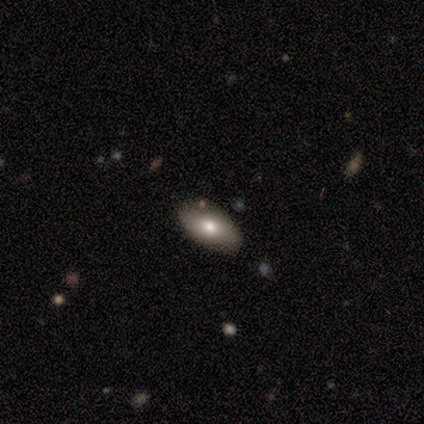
smooth-or-featured: smooth: 60% | featured or disk: 40% | star or artifact: 0%
  how-rounded: in between: 100% | round: 0% | cigar-shaped: 0%
  merging: none: 100% | minor disturbance: 0% | major disturbance: 0% | merger: 0%